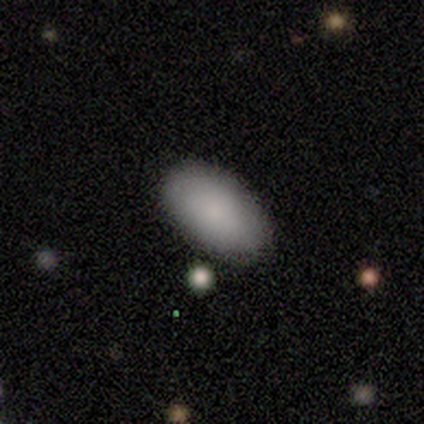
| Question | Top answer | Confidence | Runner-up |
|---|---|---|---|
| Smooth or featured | smooth | 100% | — |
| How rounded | in between | 100% | — |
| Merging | none | 100% | — |